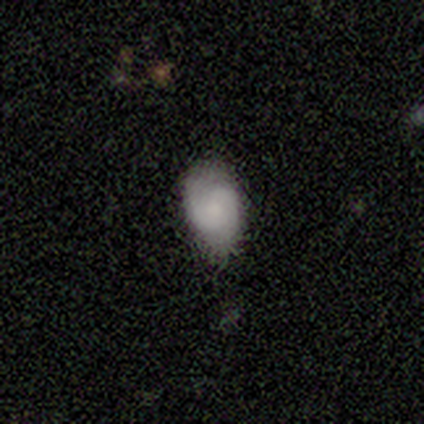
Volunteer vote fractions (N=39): Smooth or featured? 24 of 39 (62%) said smooth. How rounded? 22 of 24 (92%) said in between. Merging? 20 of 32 (62%) said none.